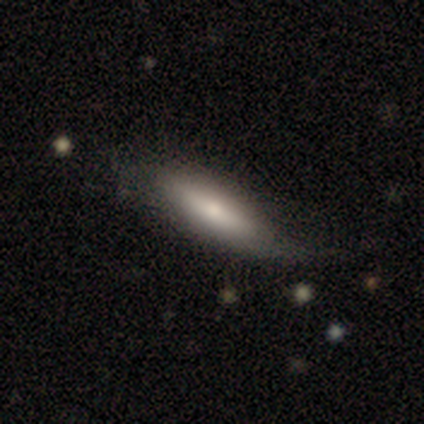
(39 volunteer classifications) Smooth or featured: smooth — 72% (featured or disk — 21%)
How rounded: in between — 50% (tied with cigar-shaped — 50%)
Merging: none — 31% (minor disturbance — 22%)